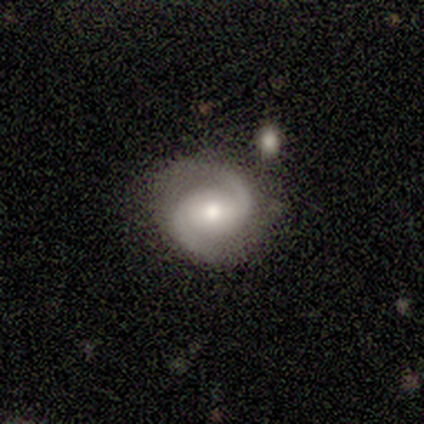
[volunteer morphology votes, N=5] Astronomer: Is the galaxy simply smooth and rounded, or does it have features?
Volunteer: featured or disk — 100%.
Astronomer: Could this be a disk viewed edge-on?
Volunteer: no — 100%.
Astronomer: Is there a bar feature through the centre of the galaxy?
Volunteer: no — 80%.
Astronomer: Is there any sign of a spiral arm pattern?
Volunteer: yes — 100%.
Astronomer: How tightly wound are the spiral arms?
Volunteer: tight — 60% (runner-up: loose, 40%).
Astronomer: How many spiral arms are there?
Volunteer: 2 — 100%.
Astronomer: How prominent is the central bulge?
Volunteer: moderate — 80%.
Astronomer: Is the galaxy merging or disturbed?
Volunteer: none — 60%.